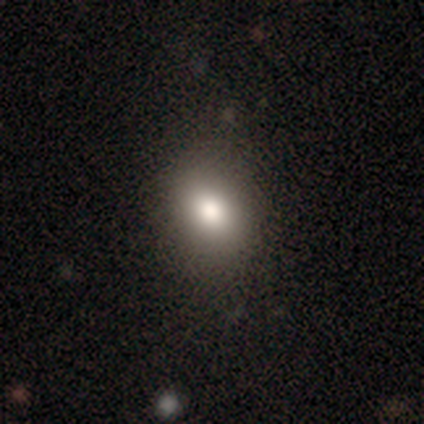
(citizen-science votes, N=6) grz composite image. It shows a smooth galaxy with no disk features (100%) that is round (50%, tied with in between). Merging: none (67%).